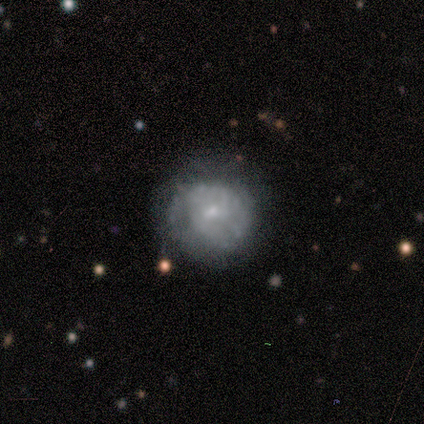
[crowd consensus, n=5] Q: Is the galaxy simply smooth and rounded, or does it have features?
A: featured or disk — 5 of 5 (100%).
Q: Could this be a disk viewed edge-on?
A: no — 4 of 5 (80%).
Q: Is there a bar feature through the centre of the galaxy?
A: no — 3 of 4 (75%).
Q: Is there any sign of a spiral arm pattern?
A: no — 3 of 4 (75%).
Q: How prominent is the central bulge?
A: small — 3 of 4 (75%).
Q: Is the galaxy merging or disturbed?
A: none — 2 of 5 (40%, tied with minor disturbance).